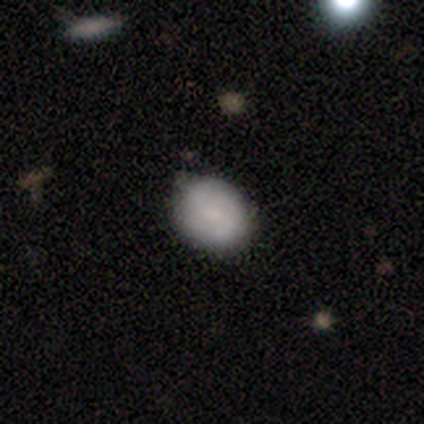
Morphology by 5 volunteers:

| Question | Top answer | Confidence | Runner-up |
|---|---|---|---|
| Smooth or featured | smooth | 100% | — |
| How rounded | round | 60% | in between (40%) |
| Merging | none | 80% | minor disturbance (20%) |